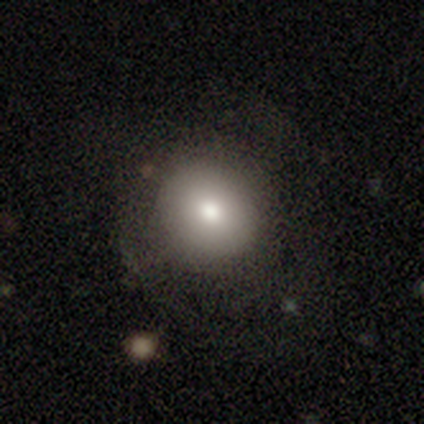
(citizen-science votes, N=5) smooth 60%, featured or disk 20%, star or artifact 20%. Down the decision tree: how rounded — round (67%); merging — none (75%).